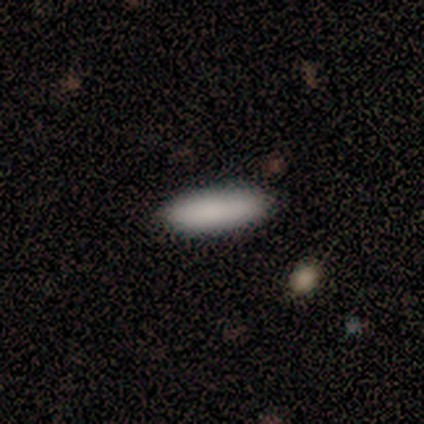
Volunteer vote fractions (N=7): Morphology: type=smooth (86%); roundness=in between (67%); merging=none (83%).